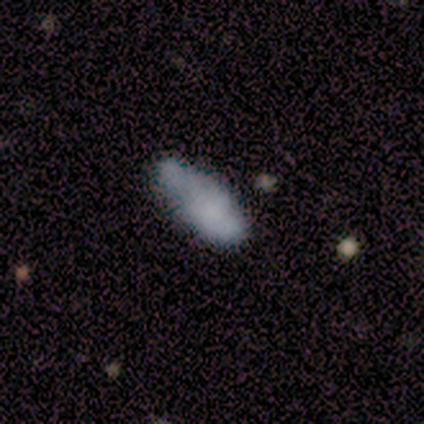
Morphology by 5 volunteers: smooth-or-featured: smooth: 80% | star or artifact: 20% | featured or disk: 0%
  how-rounded: in between: 100% | round: 0% | cigar-shaped: 0%
  merging: none: 50% | minor disturbance: 25% | major disturbance: 25% | merger: 0%